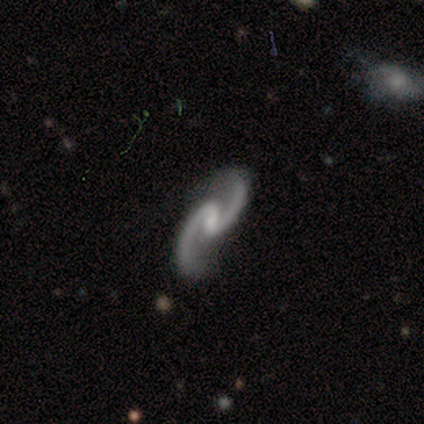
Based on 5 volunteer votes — Volunteers were most divided on "bulge size" (2-way tie): moderate: 40%, none: 40%, small: 20%, dominant: 0%, large: 0%. More confident: smooth or featured — featured or disk (100%); edge-on disk — no (100%); spiral arms — yes (100%); spiral winding — medium (100%); spiral arm count — 2 (100%); merging — none (100%); bar — weak (60%).